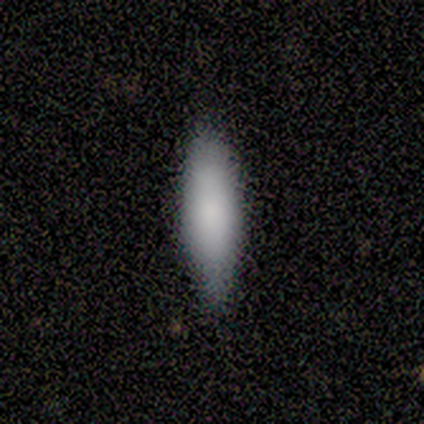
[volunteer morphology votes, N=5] Smooth or featured? 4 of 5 (80%) said smooth. How rounded? 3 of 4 (75%) said cigar-shaped. Merging? 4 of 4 (100%) said none.